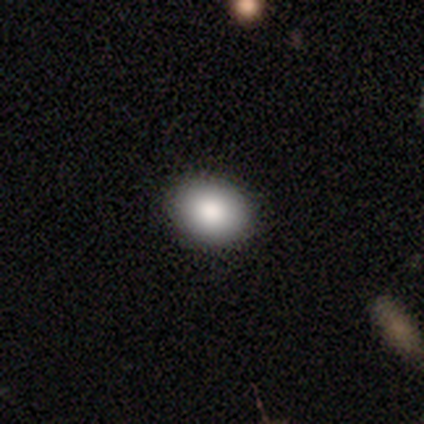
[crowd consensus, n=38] A smooth galaxy with no disk features (79%) that is in between round and cigar-shaped (73%). Merging: none (94%).